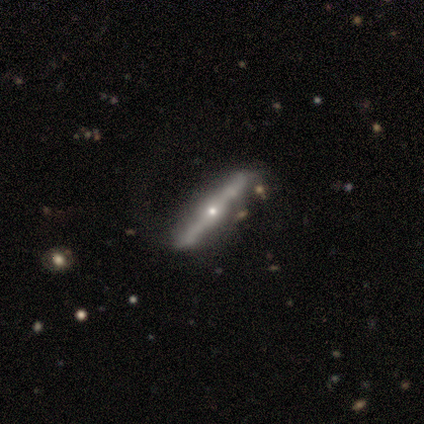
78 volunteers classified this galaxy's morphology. Q: Smooth or featured?
A: featured or disk (90%); runner-up: smooth (10%)
Q: Edge-on disk?
A: yes (94%); runner-up: no (6%)
Q: Edge-on bulge?
A: rounded (91%); runner-up: none (6%)
Q: Merging?
A: none (38%); runner-up: minor disturbance (8%)